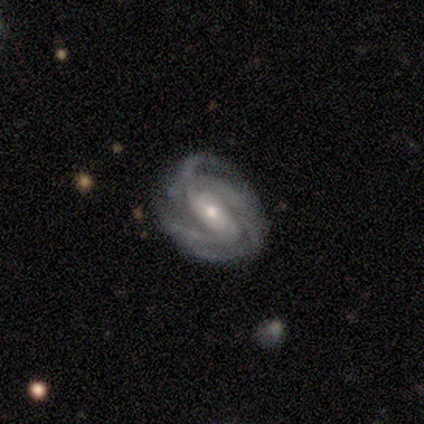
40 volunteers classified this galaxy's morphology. This appears to be a featured or disk galaxy (88%) with a weak bar (43%), 3 (34%) tight (63%) spiral arms (100%) and a moderate central bulge (51%). Merging: none (51%).